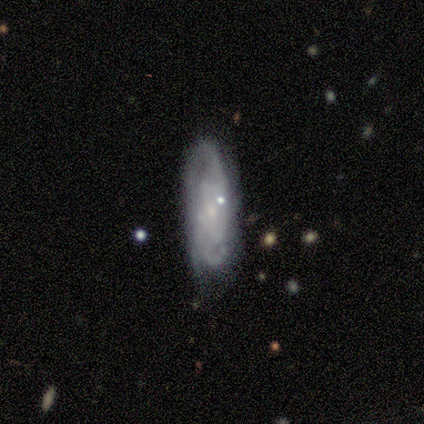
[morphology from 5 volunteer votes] Smooth or featured? featured or disk (100%)
Edge-on disk? no (100%)
Bar? no (80%)
Spiral arms? yes (100%)
Spiral winding? tight (40%, tied with medium)
Spiral arm count? 2 (80%)
Bulge size? small (80%)
Merging? none (100%)